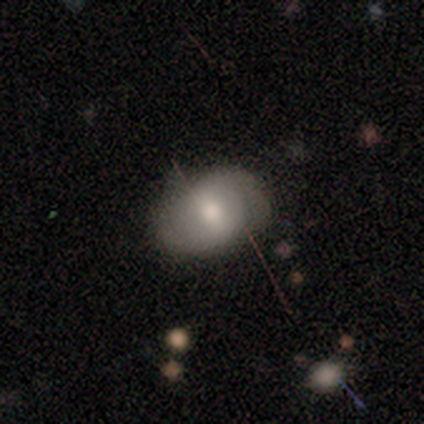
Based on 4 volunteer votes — A smooth galaxy with no disk features (50%, tied with featured or disk) that is in between round and cigar-shaped (100%). Merging: none (50%, tied with minor disturbance).